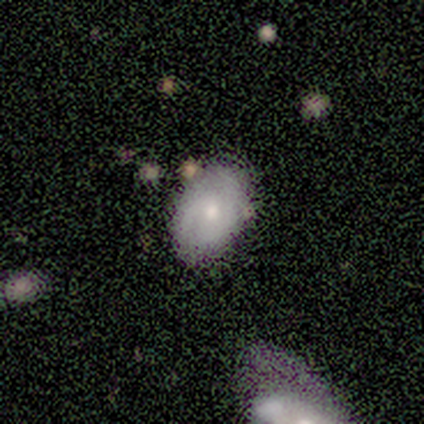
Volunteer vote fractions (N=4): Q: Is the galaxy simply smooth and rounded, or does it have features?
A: smooth — 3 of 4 (75%).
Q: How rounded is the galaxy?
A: in between — 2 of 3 (67%).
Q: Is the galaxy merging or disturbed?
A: none — 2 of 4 (50%).